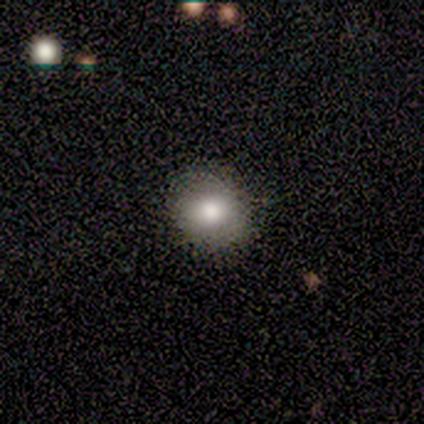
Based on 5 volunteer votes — smooth-or-featured: smooth: 60% | star or artifact: 40% | featured or disk: 0%
  how-rounded: round: 67% | in between: 33% | cigar-shaped: 0%
  merging: none: 100% | minor disturbance: 0% | major disturbance: 0% | merger: 0%